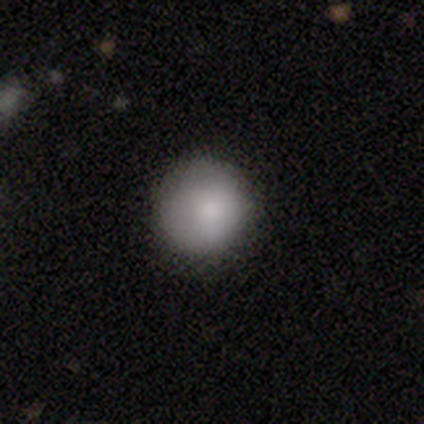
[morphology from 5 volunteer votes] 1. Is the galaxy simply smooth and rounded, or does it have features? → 100% smooth, 0% featured or disk, 0% star or artifact.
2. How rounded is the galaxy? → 80% round, 20% in between, 0% cigar-shaped.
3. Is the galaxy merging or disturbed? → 60% none, 20% minor disturbance, 20% major disturbance, 0% merger.